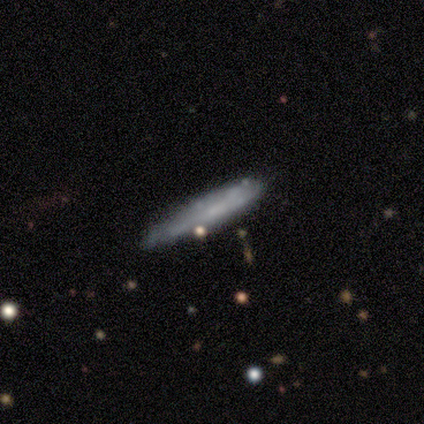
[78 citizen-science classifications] smooth_or_featured: smooth (p=0.49) [alt: featured or disk p=0.47]
how_rounded: cigar-shaped (p=0.92) [alt: in between p=0.08]
merging: none (p=0.45) [alt: minor disturbance p=0.07]